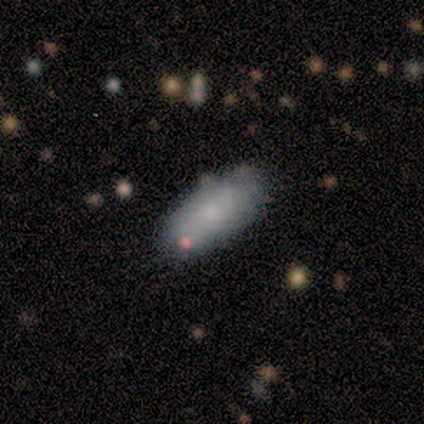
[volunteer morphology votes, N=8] smooth_or_featured: smooth (p=0.88) [alt: star or artifact p=0.12]
how_rounded: in between (p=0.86) [alt: cigar-shaped p=0.14]
merging: none (p=1.00)